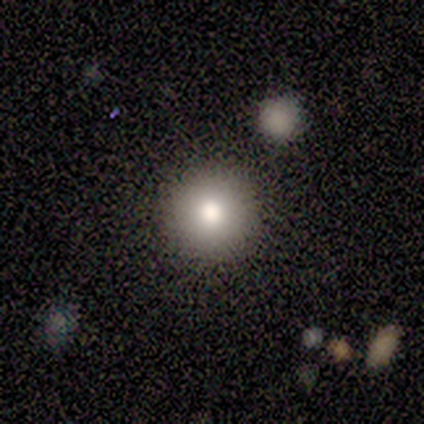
A smooth galaxy with no disk features (75%) that is round (83%). Merging: none (71%).